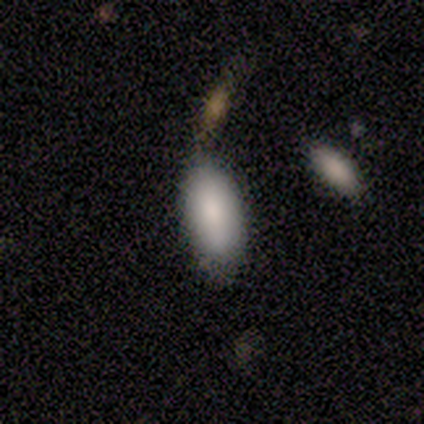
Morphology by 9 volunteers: smooth_or_featured: smooth (p=1.00)
how_rounded: in between (p=1.00)
merging: none (p=0.44) [alt: minor disturbance p=0.33]